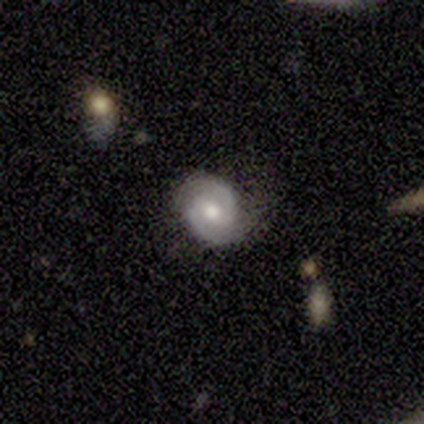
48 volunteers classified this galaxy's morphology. Smooth or featured?
  - featured or disk: 83% *
  - smooth: 12%
  - star or artifact: 4%
Edge-on disk?
  - no: 100% *
  - yes: 0%
Bar?
  - weak: 45% * (tied)
  - no: 45% * (tied)
  - strong: 10%
Spiral arms?
  - yes: 92% *
  - no: 8%
Spiral winding?
  - tight: 49% * (tied)
  - medium: 49% * (tied)
  - loose: 3%
Spiral arm count?
  - 2: 95% *
  - can't tell: 5%
  - 1: 0%
  - 3: 0%
  - 4: 0%
  - more than 4: 0%
Bulge size?
  - moderate: 75% *
  - large: 12%
  - small: 12%
  - dominant: 0%
  - none: 0%
Merging?
  - none: 70% *
  - minor disturbance: 24%
  - major disturbance: 4%
  - merger: 2%